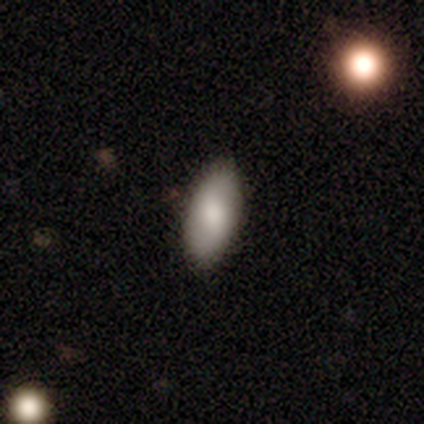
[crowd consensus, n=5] Volunteers were most divided on "how rounded": in between: 80%, round: 20%, cigar-shaped: 0%. More confident: smooth or featured — smooth (100%); merging — none (100%).